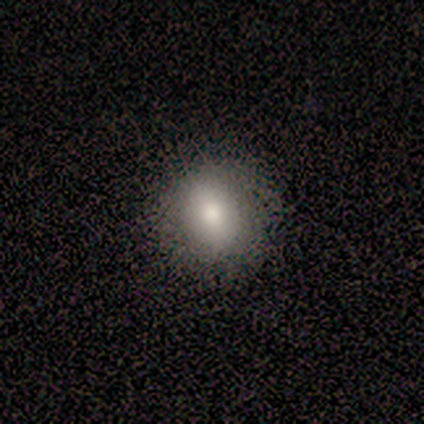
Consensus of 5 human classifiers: This is likely a smooth galaxy (60%). How rounded: clearly in between (100%). Merging: clearly none (100%).